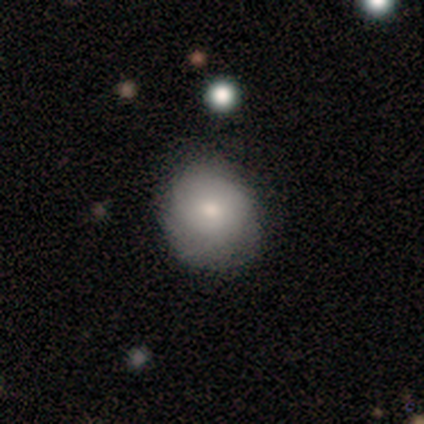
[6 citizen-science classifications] Smooth or featured: smooth — 67% (featured or disk — 17%)
How rounded: round — 100%
Merging: none — 80% (minor disturbance — 20%)